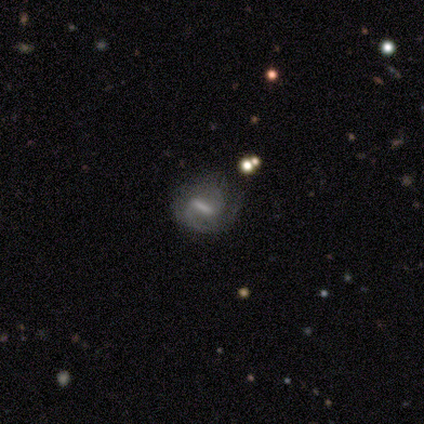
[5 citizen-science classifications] This is likely a featured or disk galaxy (60%). It is clearly not viewed edge-on (100%). Bar: likely weak (67%). Spiral arm pattern: clearly yes (100%). Spiral arm count: likely 2 (67%). Spiral winding: likely medium (67%). Central bulge: likely small (67%). Merging: likely minor disturbance (67%).